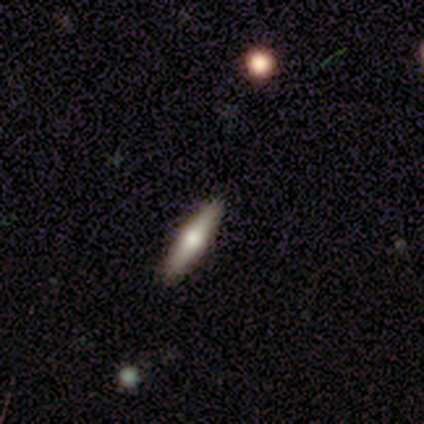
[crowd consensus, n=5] Smooth or featured: featured or disk — 60% (smooth — 40%)
Edge-on disk: yes — 100%
Edge-on bulge: rounded — 100%
Merging: none — 80% (minor disturbance — 20%)